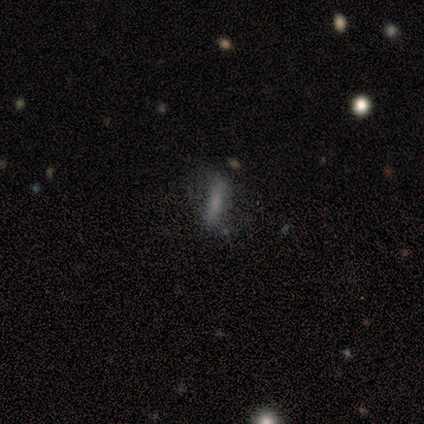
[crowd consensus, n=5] A smooth galaxy with no disk features (40%, tied with star or artifact) that is cigar-shaped (100%).

Vote fractions:
- Smooth or featured? smooth: 40% (tied) / star or artifact: 40% (tied) / featured or disk: 20%
- How rounded? cigar-shaped: 100% / round: 0% / in between: 0%
- Merging? major disturbance: 67% / none: 33% / minor disturbance: 0% / merger: 0%